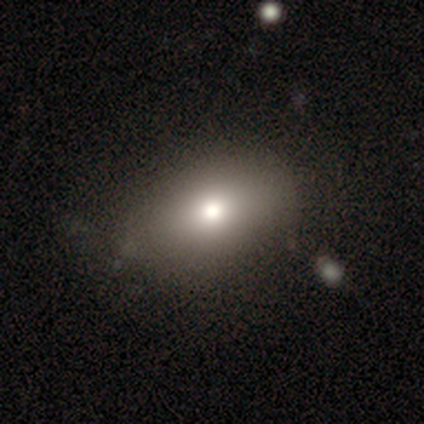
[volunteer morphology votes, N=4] smooth_or_featured: smooth (p=0.50) [tied with: star or artifact p=0.50]
how_rounded: round (p=0.50) [tied with: in between p=0.50]
merging: none (p=0.50) [tied with: major disturbance p=0.50]